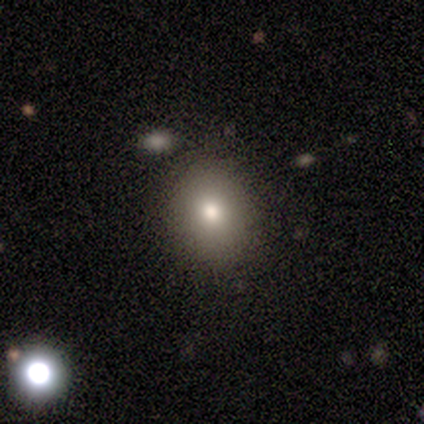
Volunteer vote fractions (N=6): Smooth or featured?
  - smooth: 67% *
  - featured or disk: 33%
  - star or artifact: 0%
How rounded?
  - round: 50% *
  - in between: 25%
  - cigar-shaped: 25%
Merging?
  - none: 67% *
  - minor disturbance: 33%
  - major disturbance: 0%
  - merger: 0%